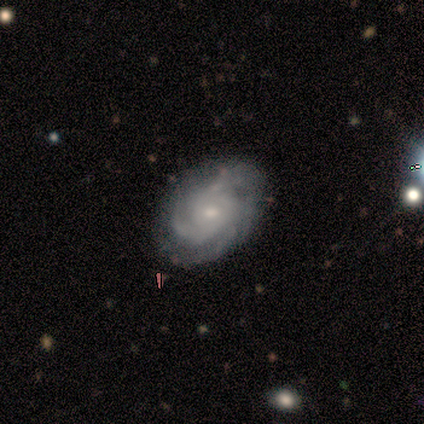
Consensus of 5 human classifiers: This appears to be a featured or disk galaxy (100%) with no bar (80%), tight (60%) spiral arms (100%) and a small central bulge (80%). Merging: none (80%).